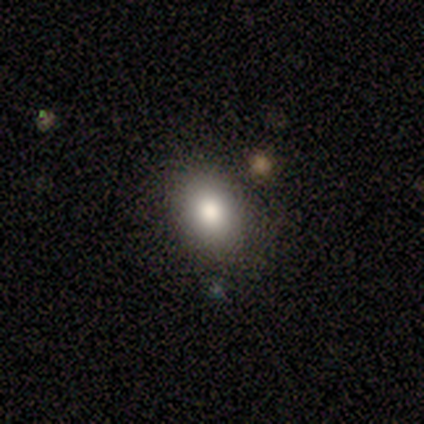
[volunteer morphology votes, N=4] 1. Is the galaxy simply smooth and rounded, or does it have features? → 100% smooth, 0% featured or disk, 0% star or artifact.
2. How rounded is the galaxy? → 50% round (tied), 50% in between (tied), 0% cigar-shaped.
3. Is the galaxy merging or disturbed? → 75% none, 25% minor disturbance, 0% major disturbance, 0% merger.